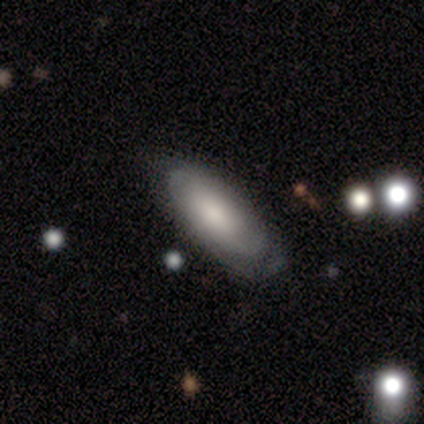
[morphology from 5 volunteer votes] This is clearly a smooth galaxy (80%). How rounded: likely in between (75%). Merging: clearly none (100%).